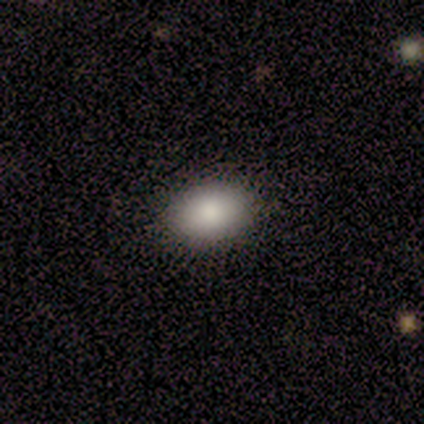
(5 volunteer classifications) This is clearly a smooth galaxy (80%). How rounded: possibly round (50%, tied with in between). Merging: clearly none (100%).